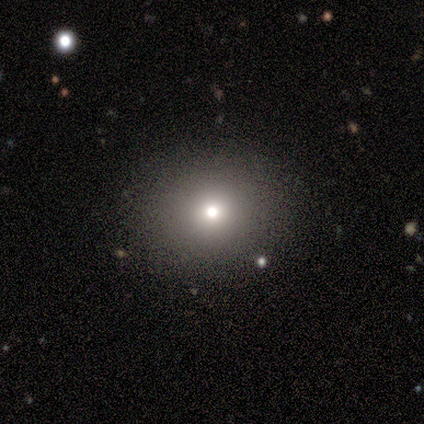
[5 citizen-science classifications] Volunteers were most divided on "smooth or featured": star or artifact: 60%, smooth: 40%, featured or disk: 0%.